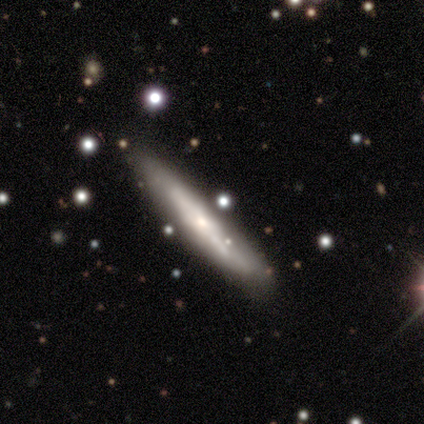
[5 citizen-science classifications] A smooth galaxy with no disk features (60%) that is cigar-shaped (100%).

Vote fractions:
- Smooth or featured? smooth: 60% / featured or disk: 40% / star or artifact: 0%
- How rounded? cigar-shaped: 100% / round: 0% / in between: 0%
- Merging? none: 100% / minor disturbance: 0% / major disturbance: 0% / merger: 0%